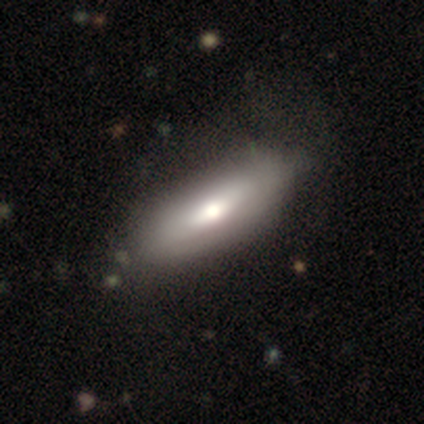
smooth_or_featured: smooth (p=0.60) [alt: featured or disk p=0.35]
how_rounded: in between (p=0.79) [alt: cigar-shaped p=0.21]
merging: none (p=0.63) [alt: minor disturbance p=0.11]